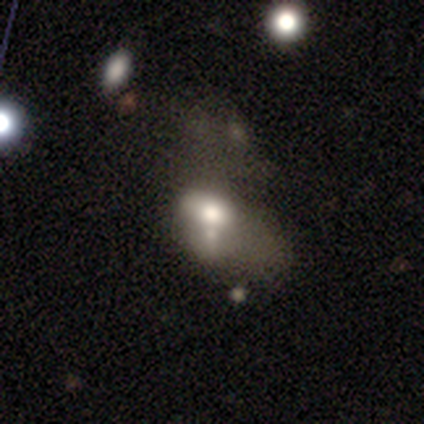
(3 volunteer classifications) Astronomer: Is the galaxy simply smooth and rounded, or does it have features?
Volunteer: smooth — 100%.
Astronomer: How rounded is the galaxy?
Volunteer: in between — 100%.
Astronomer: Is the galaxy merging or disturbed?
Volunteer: none — 33%, tied with minor disturbance and major disturbance at 33%.